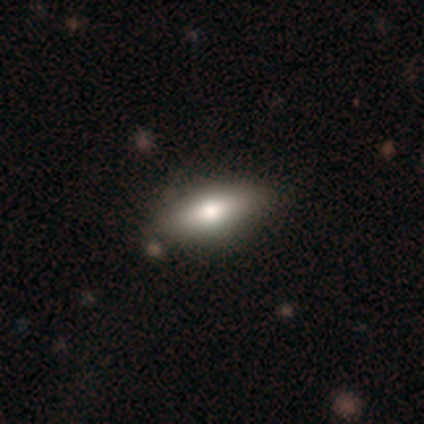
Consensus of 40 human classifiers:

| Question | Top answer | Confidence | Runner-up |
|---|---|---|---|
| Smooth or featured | smooth | 72% | featured or disk (20%) |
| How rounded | in between | 55% | cigar-shaped (41%) |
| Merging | none | 92% | minor disturbance (8%) |